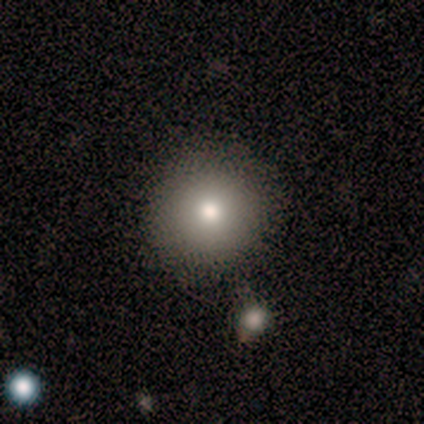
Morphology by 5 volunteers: Q: Smooth or featured?
A: smooth (80%); runner-up: featured or disk (20%)
Q: How rounded?
A: round (100%)
Q: Merging?
A: none (80%); runner-up: minor disturbance (20%)